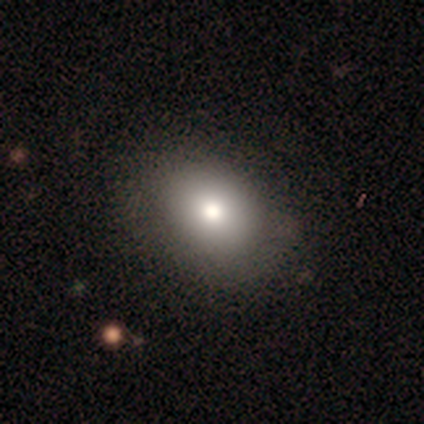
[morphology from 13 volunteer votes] A smooth galaxy with no disk features (92%) that is in between round and cigar-shaped (67%).

Vote fractions:
- Smooth or featured? smooth: 92% / featured or disk: 8% / star or artifact: 0%
- How rounded? in between: 67% / round: 33% / cigar-shaped: 0%
- Merging? none: 62% / minor disturbance: 23% / major disturbance: 8% / merger: 8%